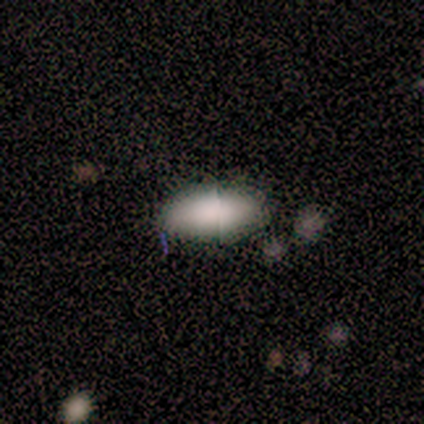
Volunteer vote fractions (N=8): Smooth or featured: smooth — 88% (star or artifact — 12%)
How rounded: in between — 86% (cigar-shaped — 14%)
Merging: none — 86% (minor disturbance — 14%)